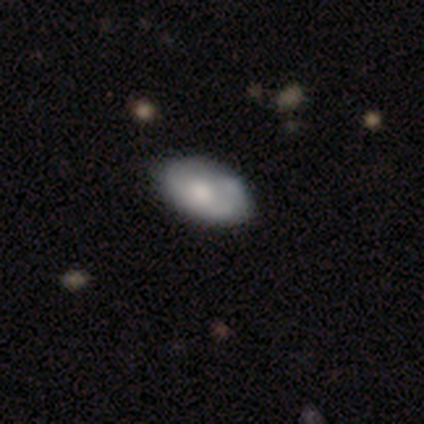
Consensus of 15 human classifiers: Smooth or featured?
  - smooth: 80% *
  - featured or disk: 20%
  - star or artifact: 0%
How rounded?
  - in between: 100% *
  - round: 0%
  - cigar-shaped: 0%
Merging?
  - none: 73% *
  - minor disturbance: 20%
  - major disturbance: 7%
  - merger: 0%